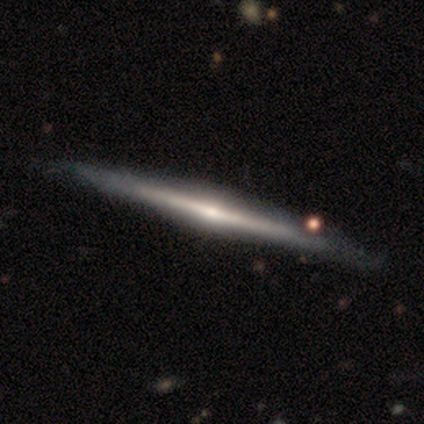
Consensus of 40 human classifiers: This appears to be a featured or disk galaxy (88%) viewed edge-on (100%) with a rounded central bulge (71%). Merging: none (59%).